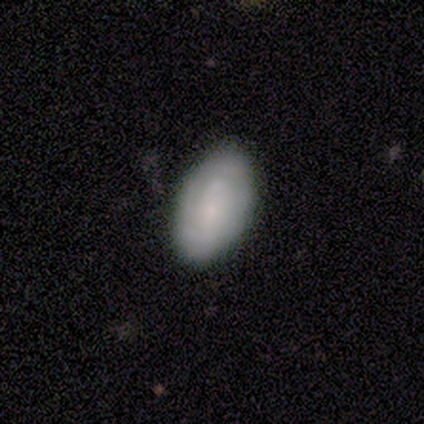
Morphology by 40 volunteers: This is possibly a smooth galaxy (50%). How rounded: clearly in between (85%). Merging: clearly none (85%).